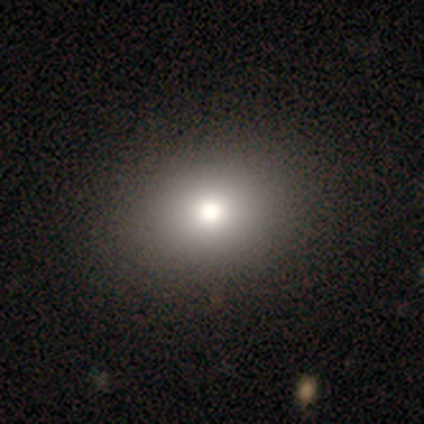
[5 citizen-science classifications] Smooth or featured? smooth (60%)
How rounded? in between (67%)
Merging? none (100%)